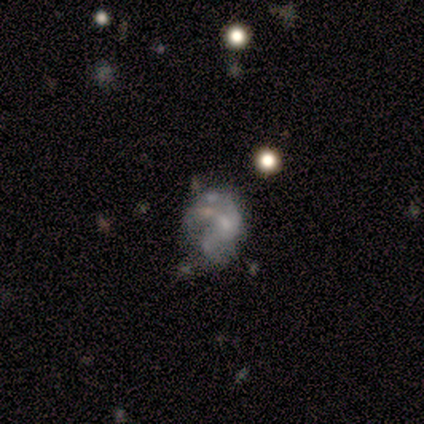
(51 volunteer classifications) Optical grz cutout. It shows a featured or disk galaxy (63%) with no bar (87%), no spiral arms (65%) and no central bulge (48%). Merging: major disturbance (33%).